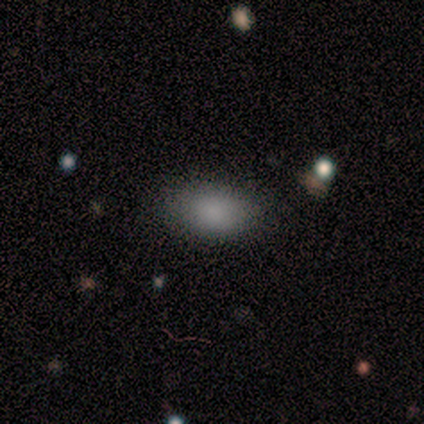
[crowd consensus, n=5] Overall: smooth (60%; star or artifact 40%). How rounded: in between (100%). Merging: none (100%).